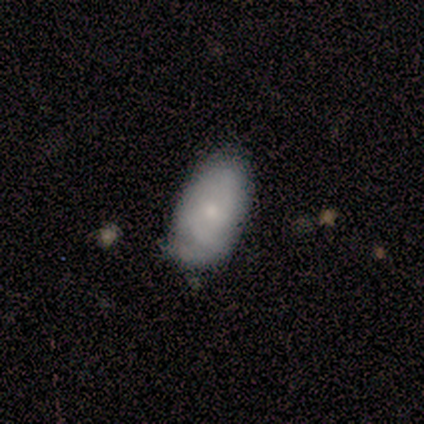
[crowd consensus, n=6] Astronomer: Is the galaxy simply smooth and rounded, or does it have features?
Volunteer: featured or disk — 50% (runner-up: smooth, 33%).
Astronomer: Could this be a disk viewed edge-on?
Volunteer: no — 100%.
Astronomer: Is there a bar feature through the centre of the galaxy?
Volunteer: no — 67%.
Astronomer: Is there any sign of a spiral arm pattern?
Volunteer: yes — 67%.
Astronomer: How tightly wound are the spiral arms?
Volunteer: tight — 100%.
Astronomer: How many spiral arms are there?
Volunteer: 2 — 50%, tied with can't tell at 50%.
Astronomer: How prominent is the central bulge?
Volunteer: moderate — 67%.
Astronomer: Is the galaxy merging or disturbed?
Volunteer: none — 40%, tied with minor disturbance at 40%.